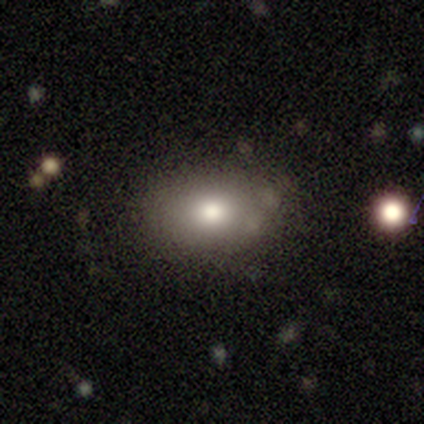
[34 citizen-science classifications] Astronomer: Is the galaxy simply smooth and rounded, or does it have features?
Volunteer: smooth — 79%.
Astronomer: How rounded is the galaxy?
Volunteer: in between — 81%.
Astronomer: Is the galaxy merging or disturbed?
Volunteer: none — 90%.